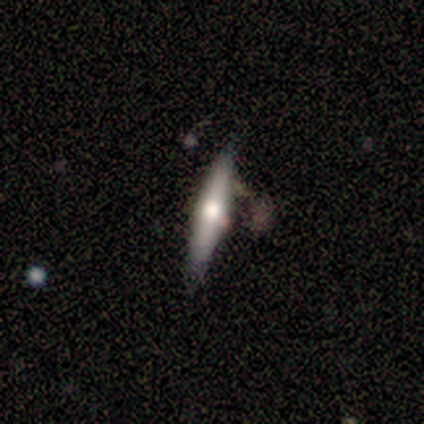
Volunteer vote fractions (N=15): Overall: featured or disk (53%; smooth 47%). Edge-on disk: yes (75%). Edge-on bulge: rounded (83%). Merging: none (53%; minor disturbance 40%).